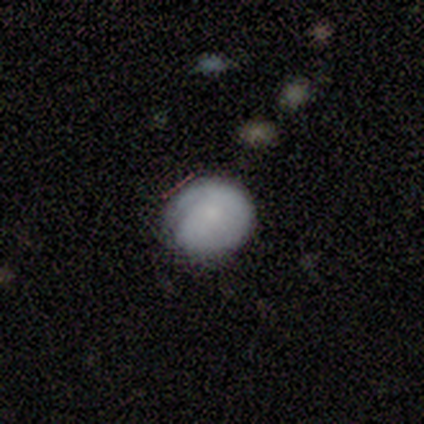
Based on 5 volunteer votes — smooth-or-featured: smooth: 100% | featured or disk: 0% | star or artifact: 0%
  how-rounded: round: 100% | in between: 0% | cigar-shaped: 0%
  merging: none: 100% | minor disturbance: 0% | major disturbance: 0% | merger: 0%